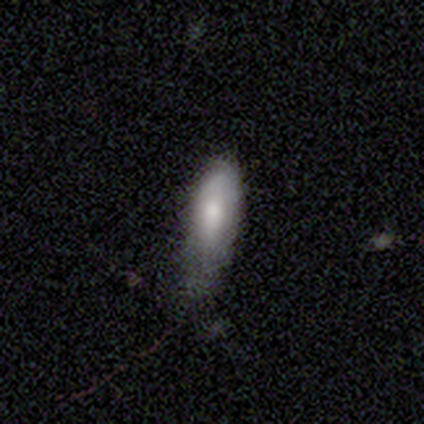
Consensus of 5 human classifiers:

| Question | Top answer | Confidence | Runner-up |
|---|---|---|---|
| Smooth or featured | smooth | 80% | featured or disk (20%) |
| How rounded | in between | 50% | tied: cigar-shaped (50%) |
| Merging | none | 60% | minor disturbance (40%) |